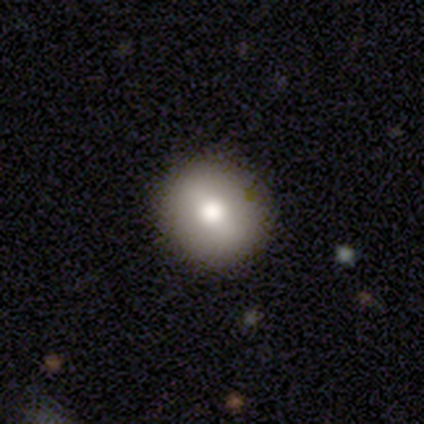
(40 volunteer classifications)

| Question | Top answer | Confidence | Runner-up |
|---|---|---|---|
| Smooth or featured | smooth | 50% | featured or disk (35%) |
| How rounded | round | 85% | in between (15%) |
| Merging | none | 91% | minor disturbance (9%) |